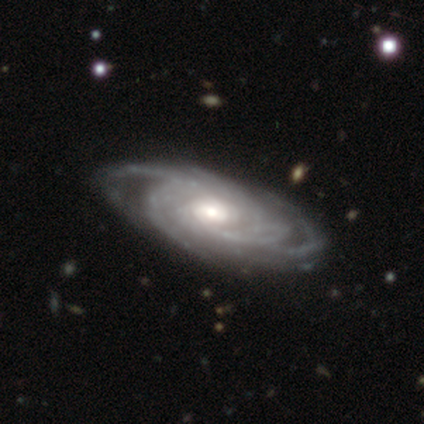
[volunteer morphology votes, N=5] This appears to be a featured or disk galaxy (80%) with no bar (100%), 4 (67%) tight (100%) spiral arms (75%) and a small central bulge (50%). Merging: none (60%).